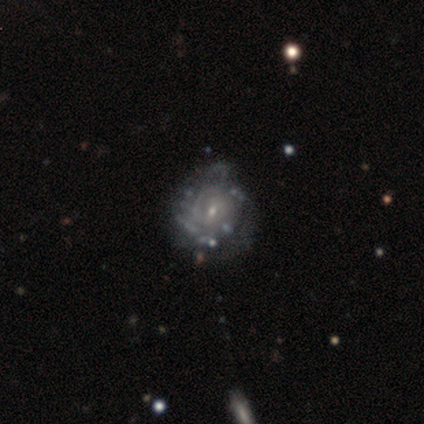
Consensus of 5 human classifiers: smooth-or-featured: featured or disk: 60% | smooth: 20% | star or artifact: 20%
  disk-edge-on: no: 100% | yes: 0%
    bar: no: 67% | strong: 33% | weak: 0%
    has-spiral-arms: no: 67% | yes: 33%
    bulge-size: small: 67% | moderate: 33% | dominant: 0% | large: 0% | none: 0%
  merging: none: 75% | minor disturbance: 25% | major disturbance: 0% | merger: 0%